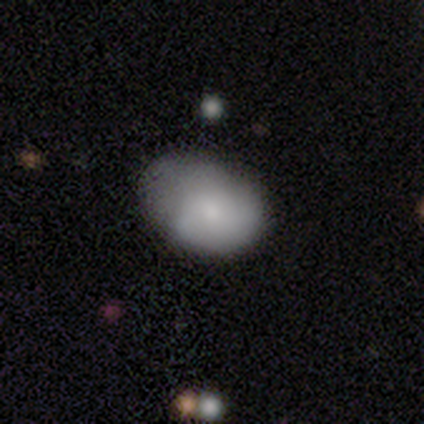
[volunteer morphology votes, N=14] Smooth or featured? 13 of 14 (93%) said smooth. How rounded? 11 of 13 (85%) said in between. Merging? 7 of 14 (50%) said minor disturbance.